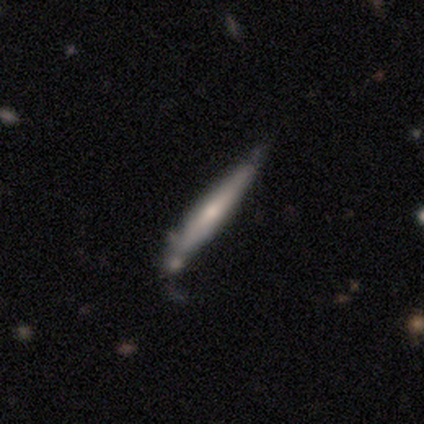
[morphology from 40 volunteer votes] smooth-or-featured: featured or disk: 48% | smooth: 45% | star or artifact: 8%
  disk-edge-on: yes: 89% | no: 11%
    edge-on-bulge: rounded: 59% | none: 41% | boxy: 0%
  merging: none: 43% (tied) | minor disturbance: 43% (tied) | merger: 11% | major disturbance: 3%